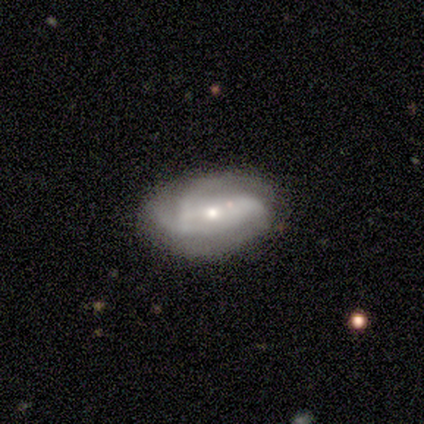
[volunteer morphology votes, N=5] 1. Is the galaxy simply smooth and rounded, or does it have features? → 80% featured or disk, 20% smooth, 0% star or artifact.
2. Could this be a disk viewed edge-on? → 75% no, 25% yes.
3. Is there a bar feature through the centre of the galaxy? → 100% no, 0% strong, 0% weak.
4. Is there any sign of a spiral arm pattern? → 67% yes, 33% no.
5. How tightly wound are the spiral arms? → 100% medium, 0% tight, 0% loose.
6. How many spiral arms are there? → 100% 3, 0% 1, 0% 2, 0% 4, 0% more than 4, 0% can't tell.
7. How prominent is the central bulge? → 67% small, 33% moderate, 0% dominant, 0% large, 0% none.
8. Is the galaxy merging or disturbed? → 80% none, 20% major disturbance, 0% minor disturbance, 0% merger.